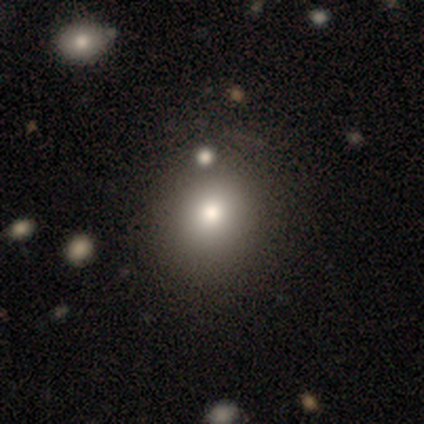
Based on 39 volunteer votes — smooth 69%, featured or disk 21%, star or artifact 10%. Down the decision tree: how rounded — round (81%); merging — none (63%).